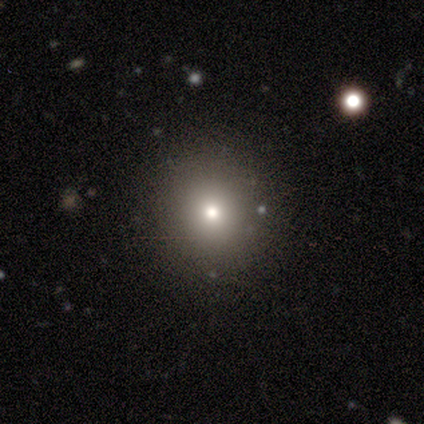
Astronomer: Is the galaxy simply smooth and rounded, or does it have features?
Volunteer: smooth — 60%.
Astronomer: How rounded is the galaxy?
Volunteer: round — 100%.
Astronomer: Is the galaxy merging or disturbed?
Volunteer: none — 100%.